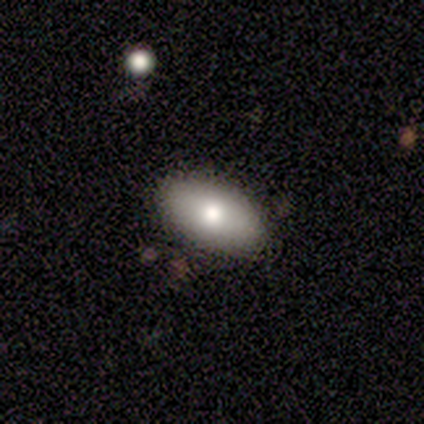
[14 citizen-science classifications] Smooth or featured: smooth — 100%
How rounded: in between — 86% (round — 14%)
Merging: none — 93% (minor disturbance — 7%)